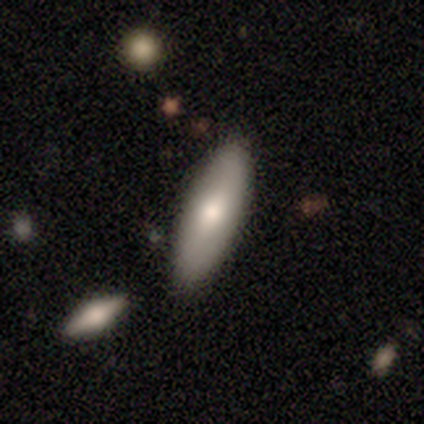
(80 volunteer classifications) Volunteers were most divided on "how rounded": in between: 67%, cigar-shaped: 33%, round: 0%. More confident: smooth or featured — smooth (69%); merging — none (50%).